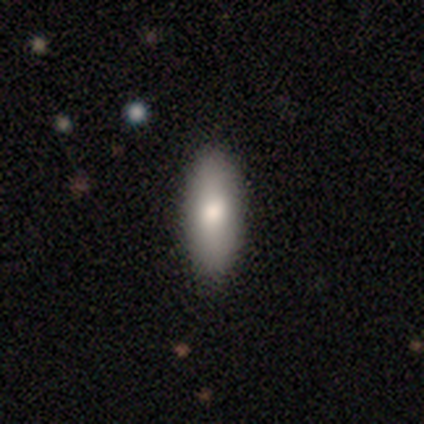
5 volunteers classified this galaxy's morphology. Smooth or featured? smooth (100%)
How rounded? in between (100%)
Merging? none (100%)